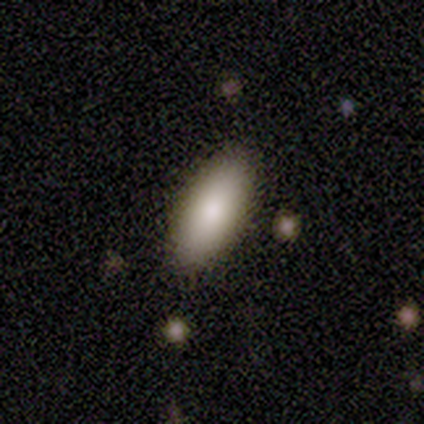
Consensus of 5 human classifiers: A smooth galaxy with no disk features (60%) that is in between round and cigar-shaped (100%). Merging: none (100%).